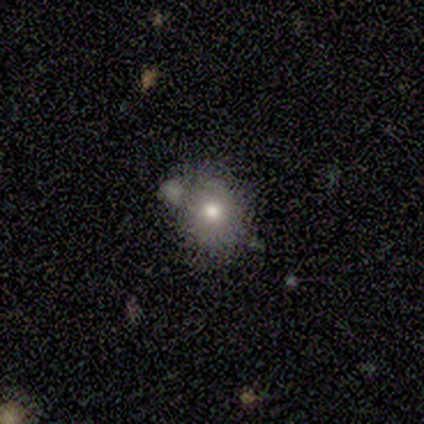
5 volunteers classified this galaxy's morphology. A featured or disk galaxy (60%) with no bar (100%), no spiral arms (100%) and a moderate central bulge (67%).

Vote fractions:
- Smooth or featured? featured or disk: 60% / smooth: 40% / star or artifact: 0%
- Edge-on disk? no: 100% / yes: 0%
- Bar? no: 100% / strong: 0% / weak: 0%
- Spiral arms? no: 100% / yes: 0%
- Bulge size? moderate: 67% / none: 33% / dominant: 0% / large: 0% / small: 0%
- Merging? none: 80% / merger: 20% / minor disturbance: 0% / major disturbance: 0%